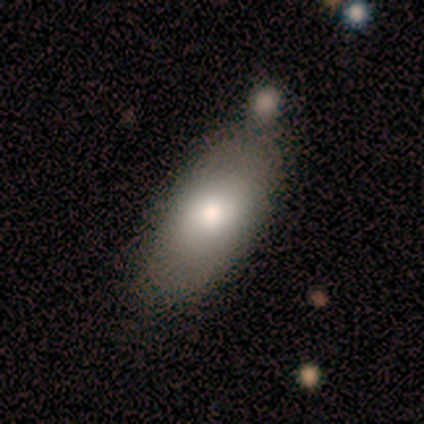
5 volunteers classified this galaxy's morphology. Volunteers were most divided on "smooth or featured": smooth: 60%, featured or disk: 40%, star or artifact: 0%. Remaining: how rounded — in between (100%); merging — merger (40%).